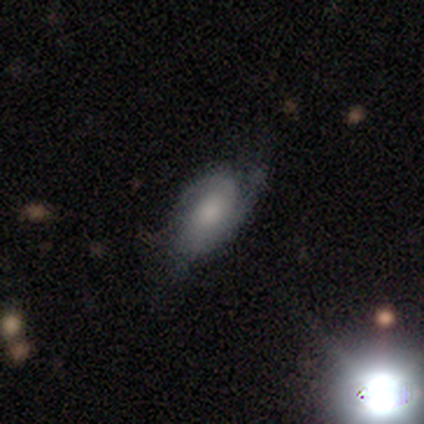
smooth_or_featured: featured or disk (p=0.80) [alt: smooth p=0.20]
disk_edge_on: no (p=0.75) [alt: yes p=0.25]
bar: no (p=1.00)
has_spiral_arms: yes (p=1.00)
spiral_winding: tight (p=1.00)
spiral_arm_count: 2 (p=0.67) [alt: 1 p=0.33]
bulge_size: small (p=0.67) [alt: large p=0.33]
merging: none (p=0.60) [alt: major disturbance p=0.40]